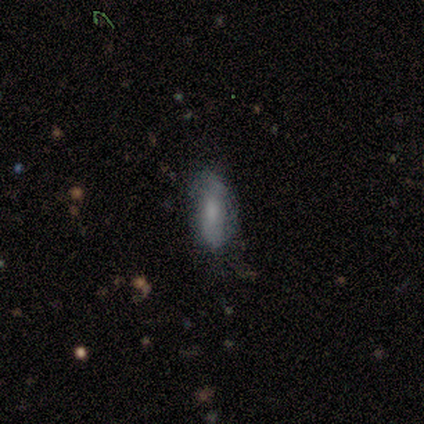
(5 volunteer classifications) Smooth or featured: smooth — 80% (featured or disk — 20%)
How rounded: in between — 50% (tied with cigar-shaped — 50%)
Merging: none — 80% (minor disturbance — 20%)